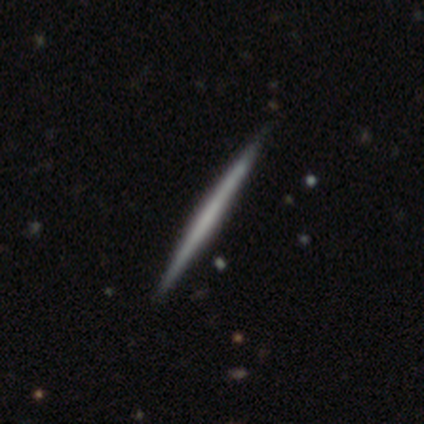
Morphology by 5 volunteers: Overall: featured or disk (80%). Edge-on disk: yes (100%). Edge-on bulge: none (100%). Merging: none (100%).